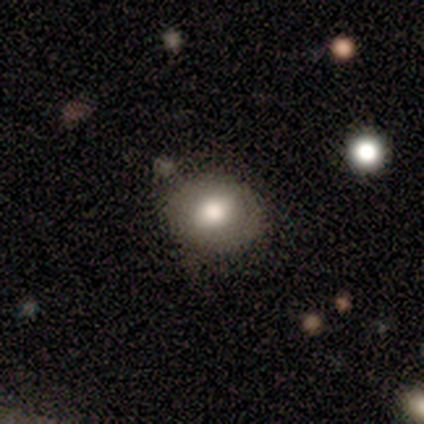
smooth 67%, featured or disk 33%, star or artifact 0%. Down the decision tree: how rounded — round (60%); merging — none (80%).